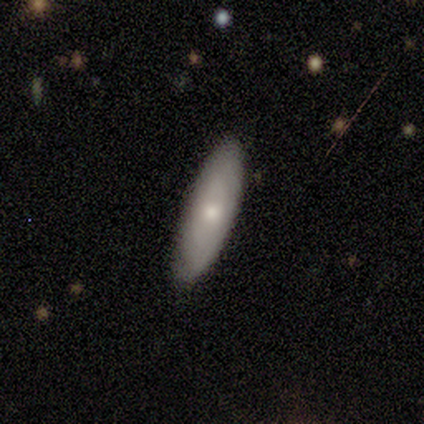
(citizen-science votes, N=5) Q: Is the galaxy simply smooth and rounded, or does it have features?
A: smooth — 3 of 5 (60%).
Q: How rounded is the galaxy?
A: in between — 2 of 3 (67%).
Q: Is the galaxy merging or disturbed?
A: none — 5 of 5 (100%).